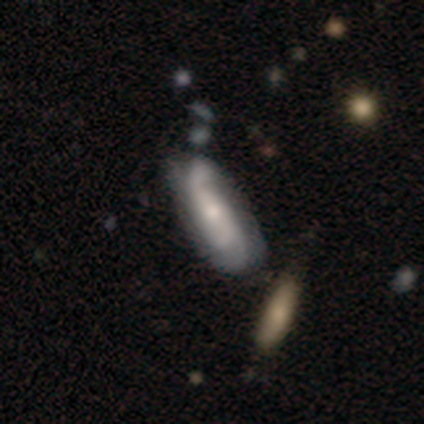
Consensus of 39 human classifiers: Volunteers were most divided on "bar" (2-way tie): weak: 45%, no: 45%, strong: 9%; "bulge size" (2-way tie): moderate: 50%, small: 50%, dominant: 0%, large: 0%, none: 0%. Remaining: spiral arms — yes (95%); edge-on disk — no (81%); smooth or featured — featured or disk (69%); spiral winding — loose (57%); spiral arm count — 2 (52%); merging — none (29%).